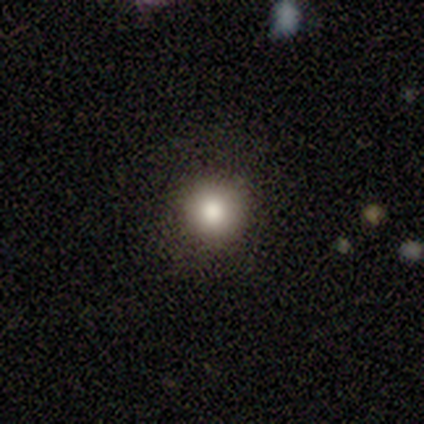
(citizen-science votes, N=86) This appears to be a smooth galaxy with no disk features (78%) that is round (93%). Merging: none (92%).